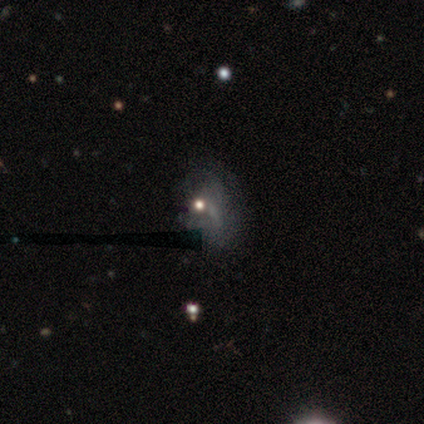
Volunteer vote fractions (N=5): This appears to be a featured or disk galaxy (40%, tied with star or artifact) with a weak bar (100%), no spiral arms (100%) and a small central bulge (50%, tied with none). Merging: none (33%, tied with major disturbance and merger).